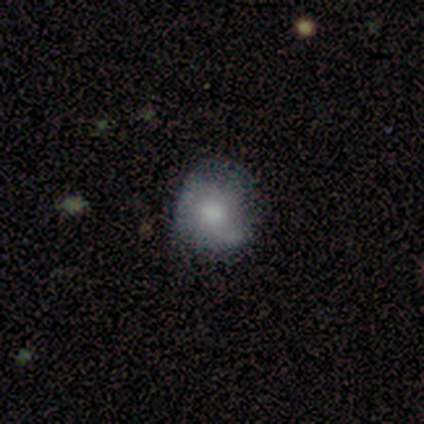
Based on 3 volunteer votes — Q: Smooth or featured?
A: featured or disk (67%); runner-up: smooth (33%)
Q: Edge-on disk?
A: no (100%)
Q: Bar?
A: no (100%)
Q: Spiral arms?
A: yes (50%); tied with: no (50%)
Q: Spiral winding?
A: tight (100%)
Q: Spiral arm count?
A: can't tell (100%)
Q: Bulge size?
A: small (50%); tied with: none (50%)
Q: Merging?
A: minor disturbance (67%); runner-up: none (33%)